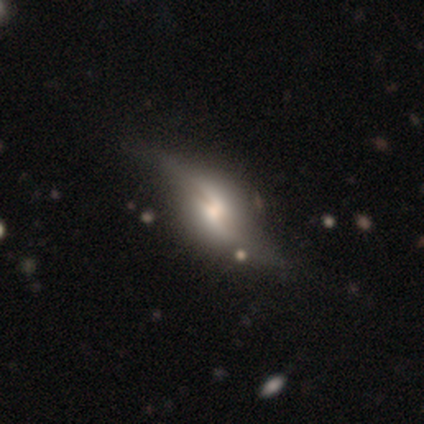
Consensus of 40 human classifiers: This appears to be a featured or disk galaxy (82%) with a weak bar (60%), 2 (89%) loose (89%) spiral arms (95%) and a moderate central bulge (45%). Merging: none (41%).